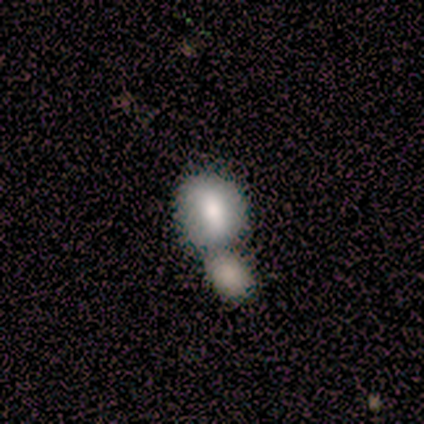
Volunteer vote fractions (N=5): smooth 80%, featured or disk 20%, star or artifact 0%. Down the decision tree: how rounded — in between (75%); merging — merger (100%).